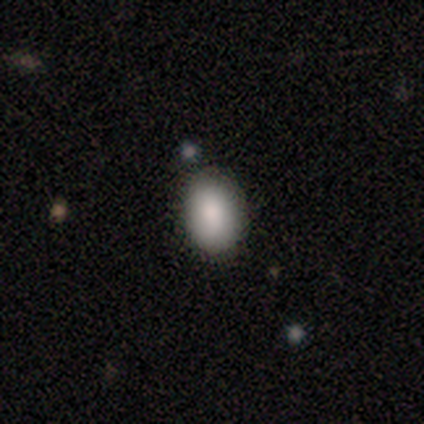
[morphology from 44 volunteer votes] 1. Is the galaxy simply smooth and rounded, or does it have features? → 86% smooth, 14% star or artifact, 0% featured or disk.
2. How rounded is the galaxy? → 95% in between, 5% round, 0% cigar-shaped.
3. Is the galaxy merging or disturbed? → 82% none, 11% minor disturbance, 5% major disturbance, 3% merger.